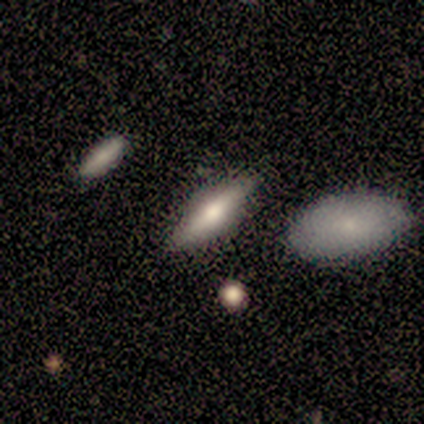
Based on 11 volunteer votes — smooth_or_featured: featured or disk (p=0.55) [alt: smooth p=0.45]
disk_edge_on: yes (p=1.00)
edge_on_bulge: rounded (p=0.67) [alt: boxy p=0.17]
merging: none (p=0.91) [alt: minor disturbance p=0.09]